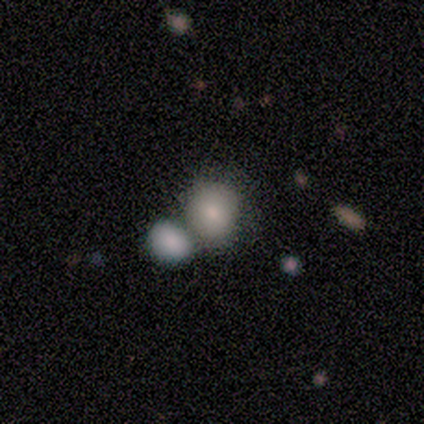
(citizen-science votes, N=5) This is likely a smooth galaxy (60%). How rounded: clearly round (100%). Merging: clearly merger (80%).